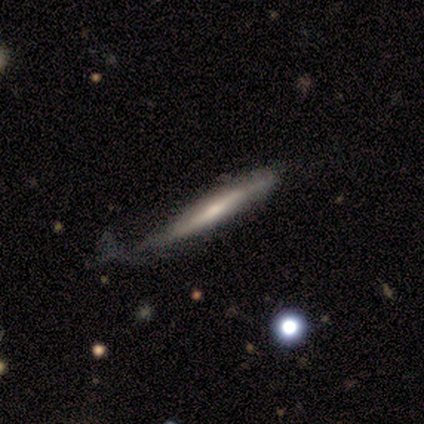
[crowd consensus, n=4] This is likely a featured or disk galaxy (75%). It is clearly viewed edge-on (100%). Edge-on bulge: clearly rounded (100%). Merging: clearly minor disturbance (100%).